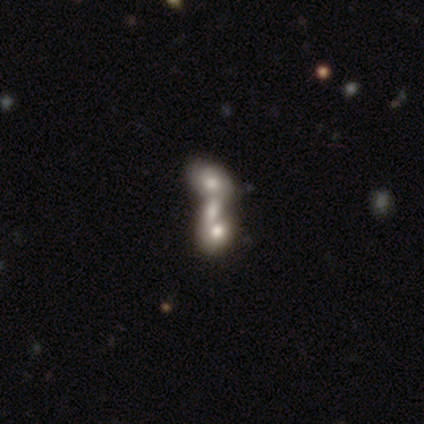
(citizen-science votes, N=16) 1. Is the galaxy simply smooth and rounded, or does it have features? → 50% smooth, 44% featured or disk, 6% star or artifact.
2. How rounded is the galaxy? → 88% in between, 12% cigar-shaped, 0% round.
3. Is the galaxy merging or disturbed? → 93% merger, 7% none, 0% minor disturbance, 0% major disturbance.